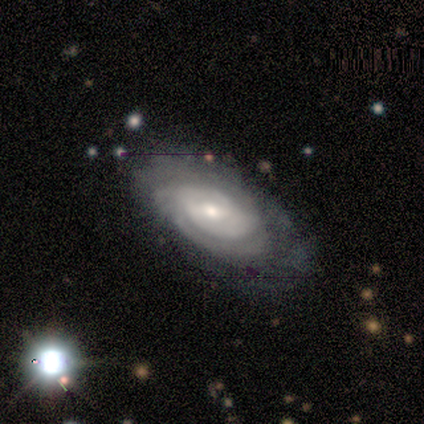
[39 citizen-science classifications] This is clearly a featured or disk galaxy (92%). It is clearly not viewed edge-on (100%). Bar: possibly weak (50%). Spiral arm pattern: clearly yes (92%). Spiral arm count: possibly can't tell (58%). Spiral winding: likely tight (76%). Central bulge: possibly moderate (47%). Merging: marginally none (38%).